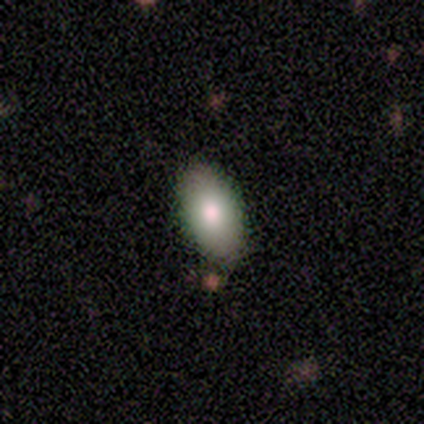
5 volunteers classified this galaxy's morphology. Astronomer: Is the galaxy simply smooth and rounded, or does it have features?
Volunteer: smooth — 80%.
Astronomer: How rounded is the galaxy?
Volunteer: in between — 75%.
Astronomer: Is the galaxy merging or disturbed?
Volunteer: none — 80%.